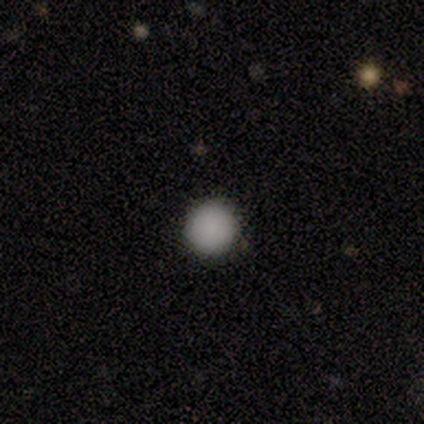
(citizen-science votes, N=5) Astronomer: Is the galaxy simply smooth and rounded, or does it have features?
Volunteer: smooth — 100%.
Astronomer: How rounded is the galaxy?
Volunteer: round — 100%.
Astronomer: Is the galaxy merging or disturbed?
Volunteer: none — 100%.